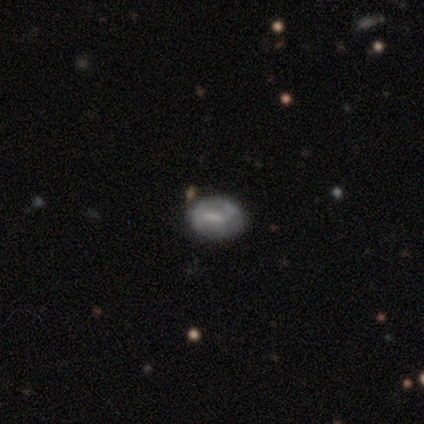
This appears to be a smooth galaxy with no disk features (80%) that is round (75%). Merging: none (100%).